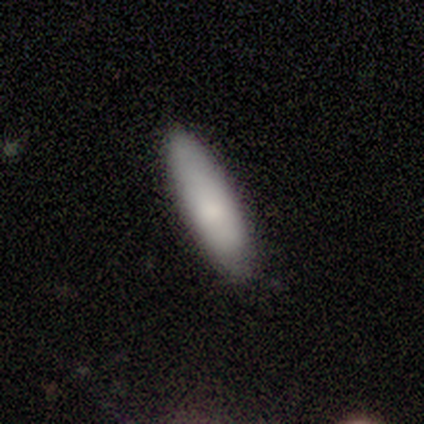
Smooth or featured: smooth — 86% (featured or disk — 10%)
How rounded: cigar-shaped — 55% (in between — 45%)
Merging: none — 44% (minor disturbance — 8%)